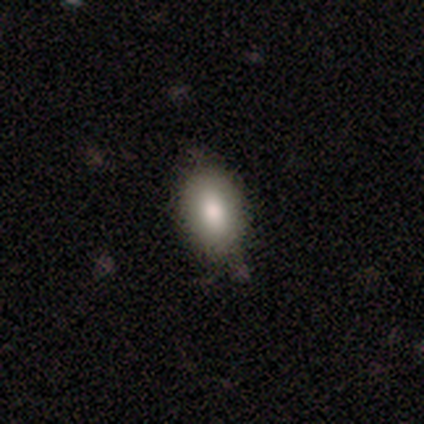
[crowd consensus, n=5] Q: Smooth or featured?
A: smooth (100%)
Q: How rounded?
A: in between (100%)
Q: Merging?
A: none (100%)